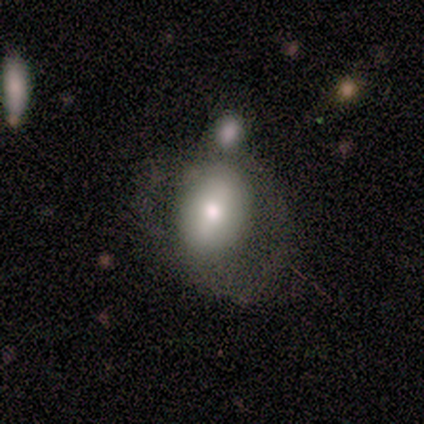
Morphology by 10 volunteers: A smooth galaxy with no disk features (70%) that is in between round and cigar-shaped (57%).

Vote fractions:
- Smooth or featured? smooth: 70% / featured or disk: 30% / star or artifact: 0%
- How rounded? in between: 57% / round: 43% / cigar-shaped: 0%
- Merging? merger: 40% / none: 30% / major disturbance: 20% / minor disturbance: 10%